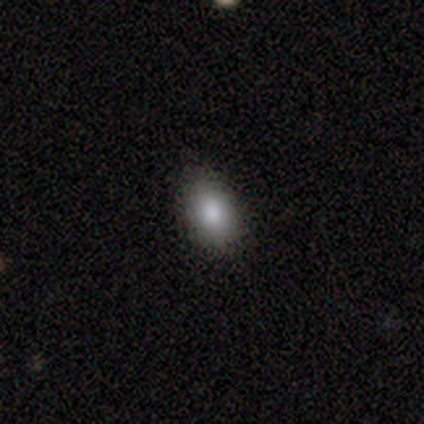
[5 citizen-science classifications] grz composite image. It shows a smooth galaxy with no disk features (60%) that is in between round and cigar-shaped (100%). Merging: none (100%).